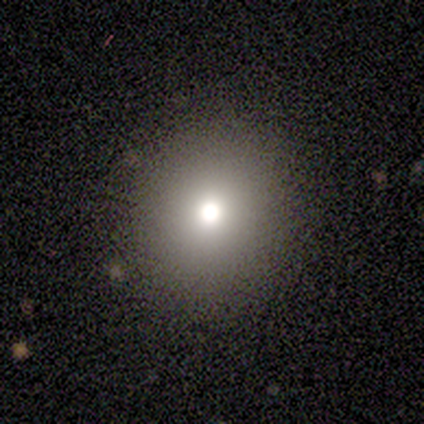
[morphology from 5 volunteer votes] smooth_or_featured: smooth (p=0.60) [alt: star or artifact p=0.40]
how_rounded: round (p=1.00)
merging: none (p=1.00)